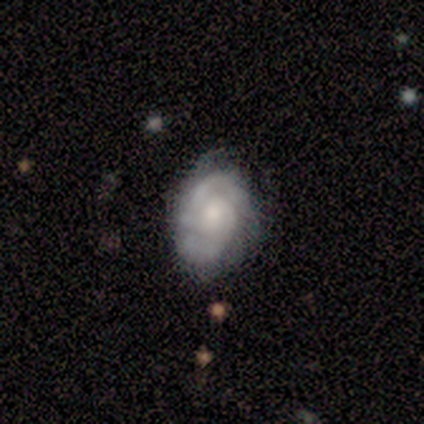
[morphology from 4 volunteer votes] type=featured or disk (100%); edge-on=no (100%); bar=no (100%); spiral arms=yes (100%); winding=medium (50%); arm count=2 (100%); bulge=moderate (75%); merging=none (75%).